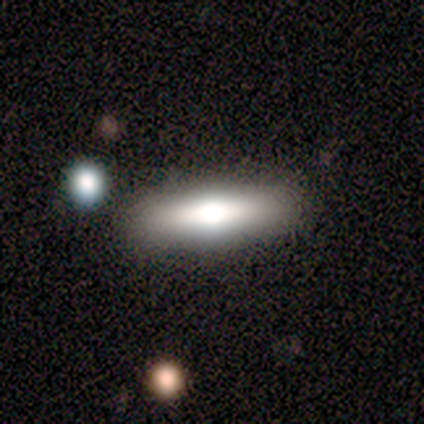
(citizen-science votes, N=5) This appears to be a featured or disk galaxy (60%) viewed edge-on (100%) with a rounded central bulge (67%). Merging: none (100%).